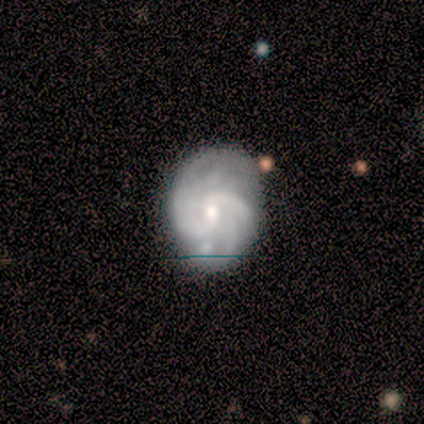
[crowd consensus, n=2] This appears to be a featured or disk galaxy (100%) with a weak bar (50%, tied with no), 2 (50%, tied with can't tell) tight (100%) spiral arms (100%) and a moderate central bulge (50%, tied with small). Merging: none (50%, tied with minor disturbance).